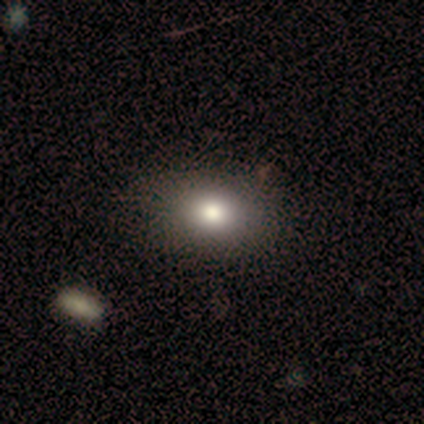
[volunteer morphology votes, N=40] smooth 82%, featured or disk 12%, star or artifact 5%. Down the decision tree: how rounded — in between (73%); merging — none (58%).